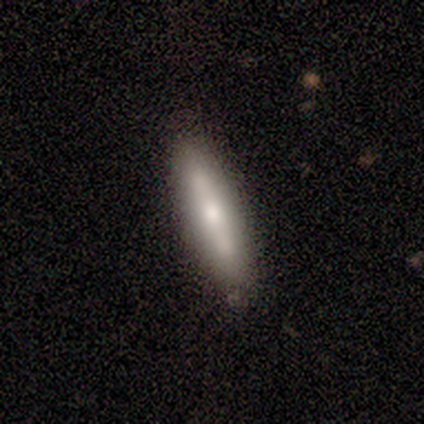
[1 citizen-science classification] A smooth galaxy with no disk features (100%) that is cigar-shaped (100%).

Vote fractions:
- Smooth or featured? smooth: 100% / featured or disk: 0% / star or artifact: 0%
- How rounded? cigar-shaped: 100% / round: 0% / in between: 0%
- Merging? merger: 100% / none: 0% / minor disturbance: 0% / major disturbance: 0%